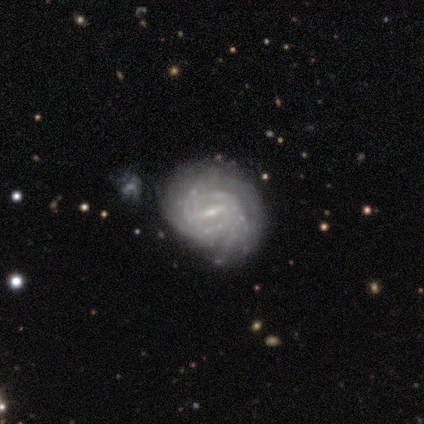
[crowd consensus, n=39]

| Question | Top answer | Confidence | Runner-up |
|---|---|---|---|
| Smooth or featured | featured or disk | 87% | smooth (10%) |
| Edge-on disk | no | 94% | yes (6%) |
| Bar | weak | 56% | strong (38%) |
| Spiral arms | yes | 97% | no (3%) |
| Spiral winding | tight | 77% | medium (19%) |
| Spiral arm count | can't tell | 42% | 2 (19%) |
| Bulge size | small | 88% | moderate (9%) |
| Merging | none | 66% | minor disturbance (13%) |